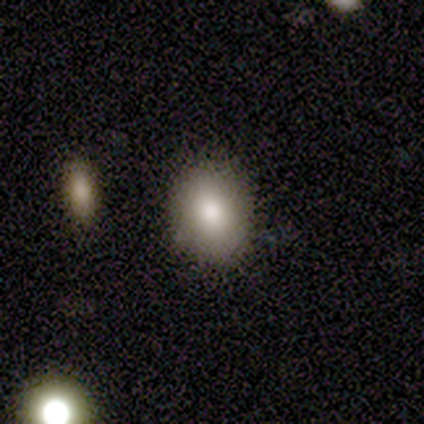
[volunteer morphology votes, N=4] Smooth or featured: smooth — 100%
How rounded: round — 50% (tied with in between — 50%)
Merging: none — 75% (minor disturbance — 25%)